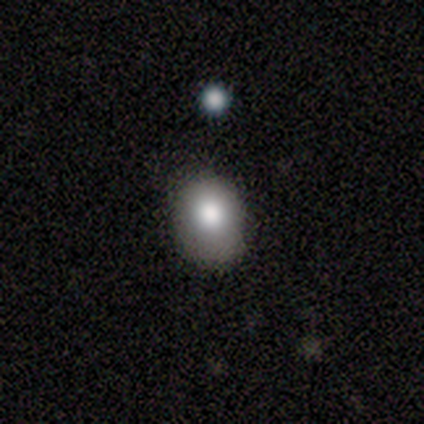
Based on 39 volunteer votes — Smooth or featured: smooth — 82% (featured or disk — 13%)
How rounded: in between — 56% (round — 44%)
Merging: none — 68% (minor disturbance — 27%)